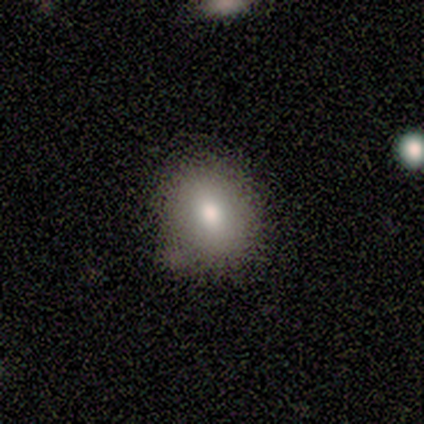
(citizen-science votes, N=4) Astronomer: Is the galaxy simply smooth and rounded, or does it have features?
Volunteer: smooth — 75%.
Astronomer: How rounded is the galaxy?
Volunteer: round — 100%.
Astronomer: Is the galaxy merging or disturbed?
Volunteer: none — 100%.